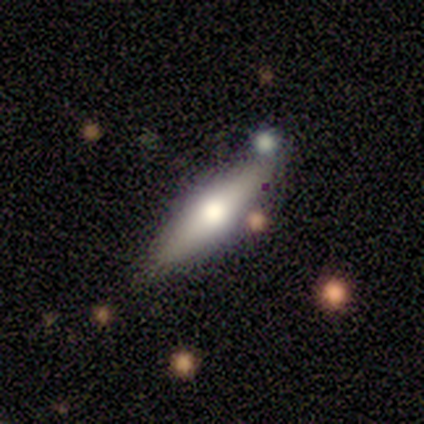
Smooth or featured? smooth (60%)
How rounded? cigar-shaped (67%)
Merging? none (60%)